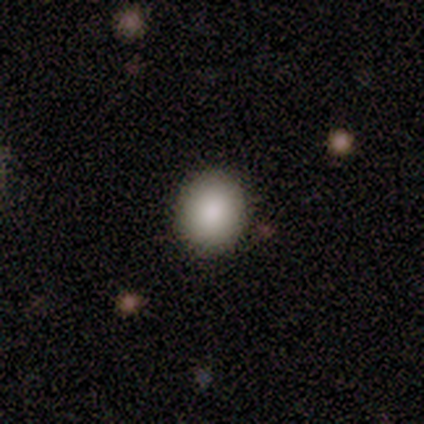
smooth-or-featured: smooth: 100% | featured or disk: 0% | star or artifact: 0%
  how-rounded: round: 83% | in between: 17% | cigar-shaped: 0%
  merging: none: 83% | merger: 17% | minor disturbance: 0% | major disturbance: 0%